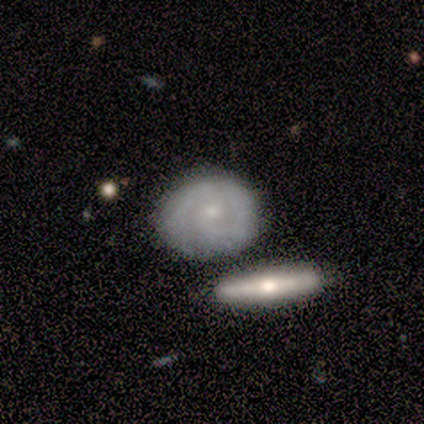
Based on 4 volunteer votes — Smooth or featured: featured or disk — 75% (smooth — 25%)
Edge-on disk: no — 100%
Bar: no — 67% (weak — 33%)
Spiral arms: yes — 67% (no — 33%)
Spiral winding: tight — 50% (tied with medium — 50%)
Spiral arm count: 1 — 100%
Bulge size: small — 67% (none — 33%)
Merging: none — 50% (major disturbance — 25%)